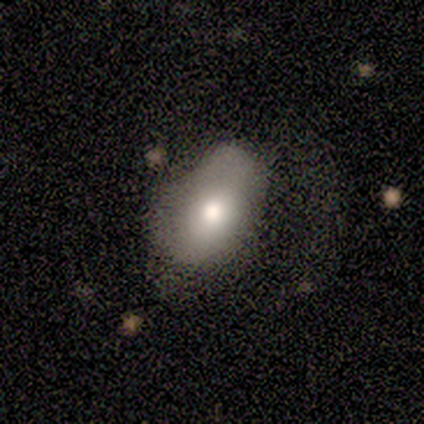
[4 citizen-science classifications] Q: Smooth or featured?
A: smooth (50%); tied with: featured or disk (50%)
Q: How rounded?
A: in between (100%)
Q: Merging?
A: none (50%); runner-up: minor disturbance (25%)